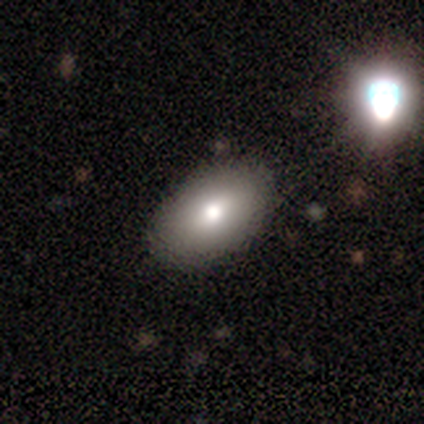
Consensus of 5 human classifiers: Smooth or featured: smooth — 80% (featured or disk — 20%)
How rounded: in between — 100%
Merging: none — 80% (minor disturbance — 20%)